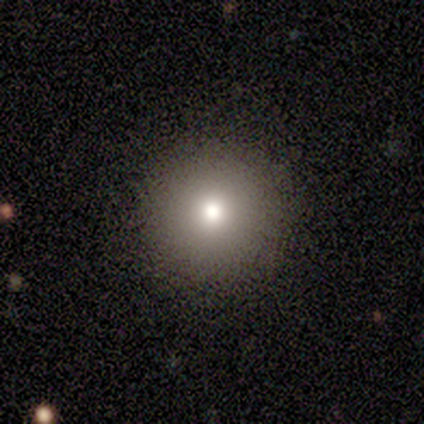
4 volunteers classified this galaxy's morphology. type=smooth (100%); roundness=round (100%); merging=none (75%).